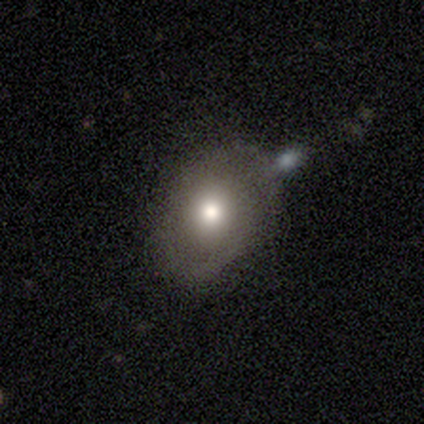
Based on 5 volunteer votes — Smooth or featured? smooth (80%)
How rounded? in between (75%)
Merging? none (80%)